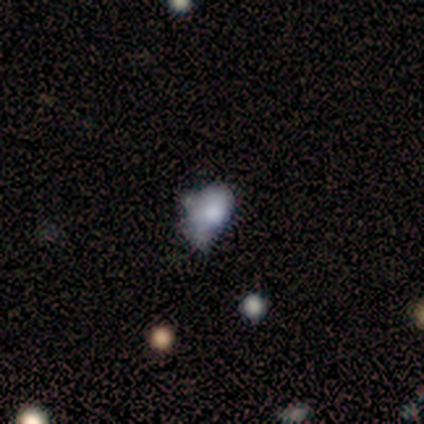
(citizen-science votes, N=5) smooth-or-featured: smooth: 100% | featured or disk: 0% | star or artifact: 0%
  how-rounded: in between: 80% | round: 20% | cigar-shaped: 0%
  merging: minor disturbance: 40% (tied) | major disturbance: 40% (tied) | merger: 20% | none: 0%